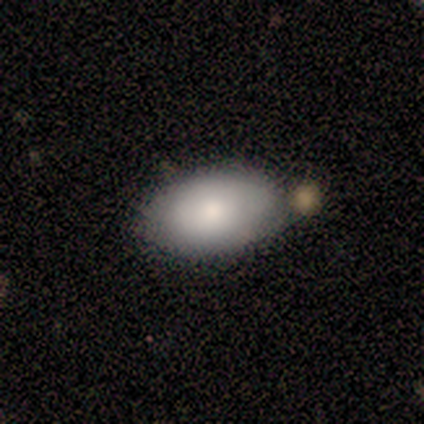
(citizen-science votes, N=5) smooth_or_featured: smooth (p=0.80) [alt: featured or disk p=0.20]
how_rounded: in between (p=1.00)
merging: none (p=0.80) [alt: minor disturbance p=0.20]